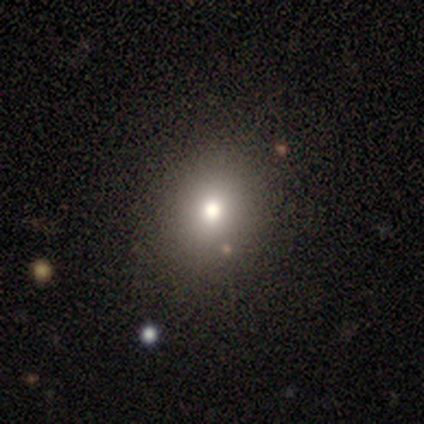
Overall: smooth (60%; featured or disk 20%). How rounded: in between (67%; round 33%). Merging: none (75%).